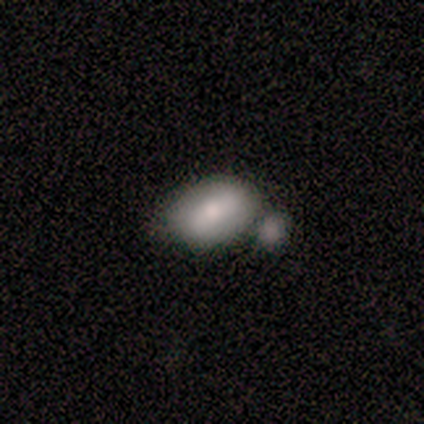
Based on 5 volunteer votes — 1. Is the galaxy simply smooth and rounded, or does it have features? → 80% smooth, 20% featured or disk, 0% star or artifact.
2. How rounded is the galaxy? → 100% in between, 0% round, 0% cigar-shaped.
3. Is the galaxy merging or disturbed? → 60% merger, 20% none, 20% minor disturbance, 0% major disturbance.